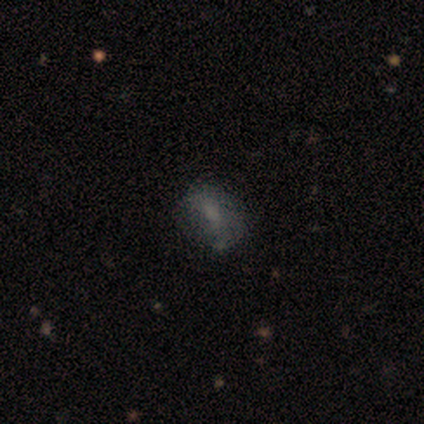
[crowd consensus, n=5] Smooth or featured?
  - smooth: 60% *
  - featured or disk: 40%
  - star or artifact: 0%
How rounded?
  - round: 67% *
  - in between: 33%
  - cigar-shaped: 0%
Merging?
  - none: 80% *
  - minor disturbance: 20%
  - major disturbance: 0%
  - merger: 0%